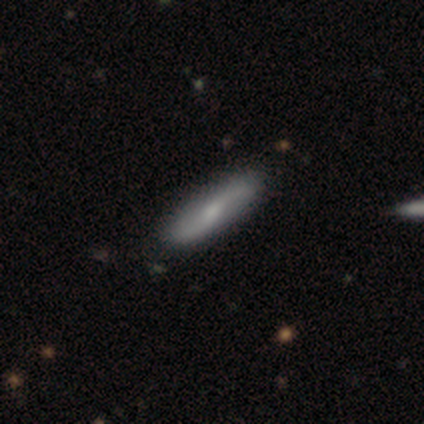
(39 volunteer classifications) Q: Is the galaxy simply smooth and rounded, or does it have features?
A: featured or disk — 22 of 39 (56%).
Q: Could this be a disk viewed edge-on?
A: no — 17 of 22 (77%).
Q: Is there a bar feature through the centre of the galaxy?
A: no — 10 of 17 (59%).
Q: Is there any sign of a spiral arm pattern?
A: yes — 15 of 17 (88%).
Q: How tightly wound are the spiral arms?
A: loose — 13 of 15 (87%).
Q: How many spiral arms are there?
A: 2 — 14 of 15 (93%).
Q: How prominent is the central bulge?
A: small — 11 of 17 (65%).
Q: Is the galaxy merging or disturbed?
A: none — 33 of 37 (89%).